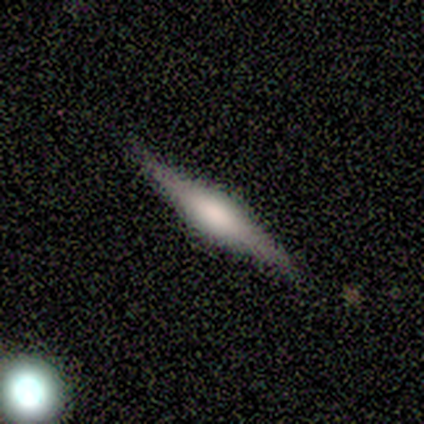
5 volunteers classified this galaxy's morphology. smooth 40% (tied), featured or disk 40% (tied), star or artifact 20%. Down the decision tree: how rounded — cigar-shaped (100%); merging — none (50%).